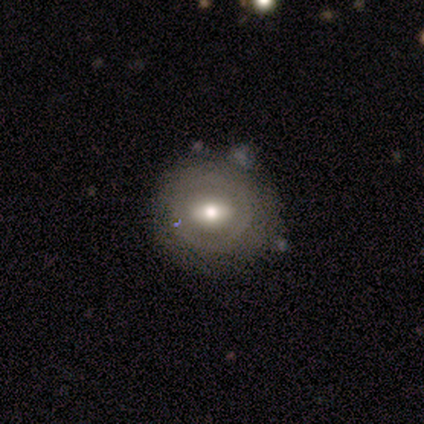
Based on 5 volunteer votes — A featured or disk galaxy (60%) with a weak bar (100%), no spiral arms (100%) and a moderate central bulge (100%).

Vote fractions:
- Smooth or featured? featured or disk: 60% / smooth: 40% / star or artifact: 0%
- Edge-on disk? no: 67% / yes: 33%
- Bar? weak: 100% / strong: 0% / no: 0%
- Spiral arms? no: 100% / yes: 0%
- Bulge size? moderate: 100% / dominant: 0% / large: 0% / small: 0% / none: 0%
- Merging? none: 60% / minor disturbance: 40% / major disturbance: 0% / merger: 0%